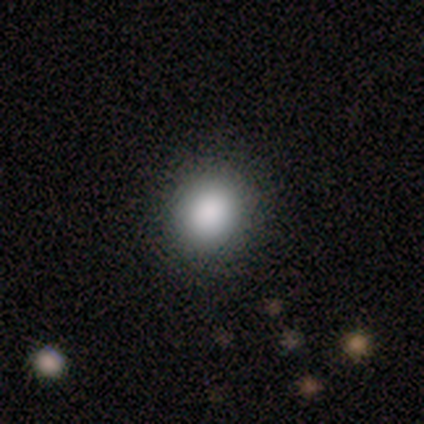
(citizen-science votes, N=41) Smooth or featured? 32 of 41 (78%) said smooth. How rounded? 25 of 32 (78%) said round. Merging? 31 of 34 (91%) said none.